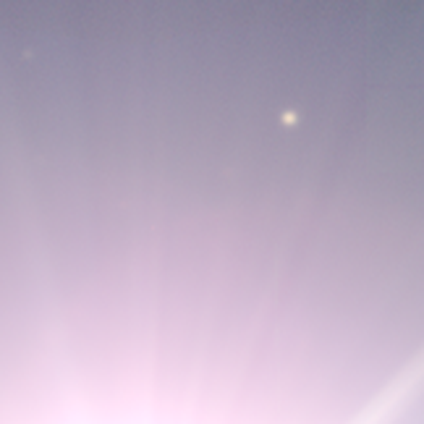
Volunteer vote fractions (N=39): Q: Smooth or featured?
A: star or artifact (95%); runner-up: smooth (5%)